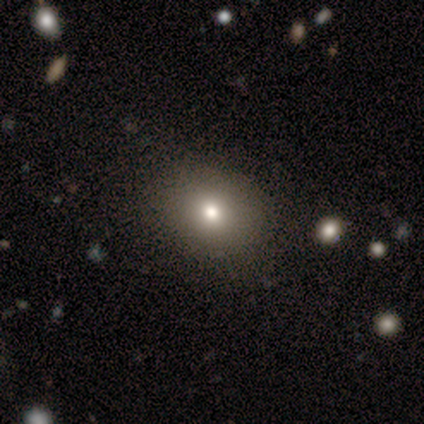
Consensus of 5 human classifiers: Volunteers were most divided on "how rounded": round: 75%, in between: 25%, cigar-shaped: 0%. More confident: smooth or featured — smooth (80%); merging — none (75%).